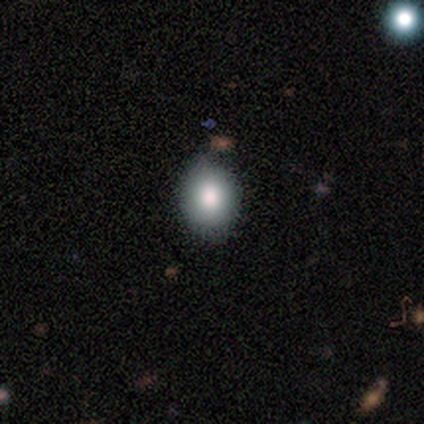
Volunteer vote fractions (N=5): Smooth or featured: smooth — 80% (featured or disk — 20%)
How rounded: in between — 75% (round — 25%)
Merging: none — 80% (merger — 20%)